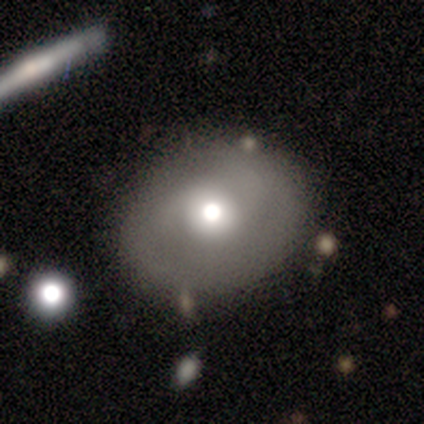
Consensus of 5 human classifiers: Volunteers were most divided on "smooth or featured" (2-way tie): smooth: 40%, featured or disk: 40%, star or artifact: 20%; "how rounded" (2-way tie): round: 50%, in between: 50%, cigar-shaped: 0%. More confident: merging — none (100%).